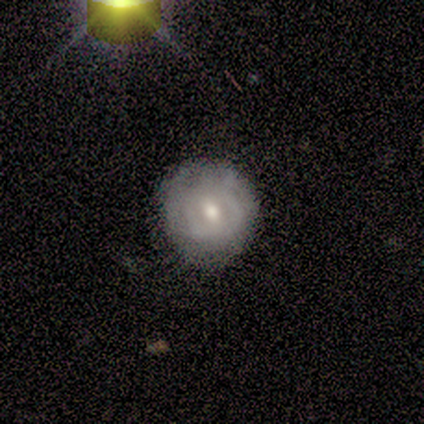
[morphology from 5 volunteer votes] Q: Smooth or featured?
A: featured or disk (60%); runner-up: smooth (40%)
Q: Edge-on disk?
A: no (100%)
Q: Bar?
A: weak (67%); runner-up: no (33%)
Q: Spiral arms?
A: yes (67%); runner-up: no (33%)
Q: Spiral winding?
A: loose (100%)
Q: Spiral arm count?
A: 2 (50%); tied with: can't tell (50%)
Q: Bulge size?
A: small (67%); runner-up: moderate (33%)
Q: Merging?
A: none (80%); runner-up: minor disturbance (20%)